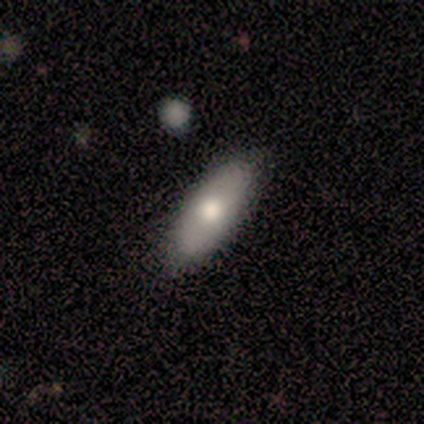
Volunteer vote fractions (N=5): Smooth or featured?
  - smooth: 100% *
  - featured or disk: 0%
  - star or artifact: 0%
How rounded?
  - in between: 80% *
  - cigar-shaped: 20%
  - round: 0%
Merging?
  - none: 80% *
  - minor disturbance: 20%
  - major disturbance: 0%
  - merger: 0%